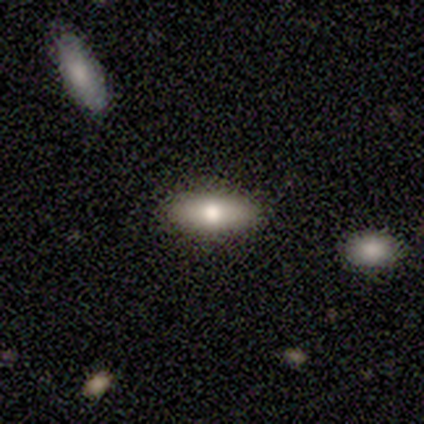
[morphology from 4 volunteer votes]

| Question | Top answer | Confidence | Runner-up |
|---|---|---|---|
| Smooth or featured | smooth | 50% | featured or disk (25%) |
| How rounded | in between | 100% | — |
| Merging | none | 100% | — |